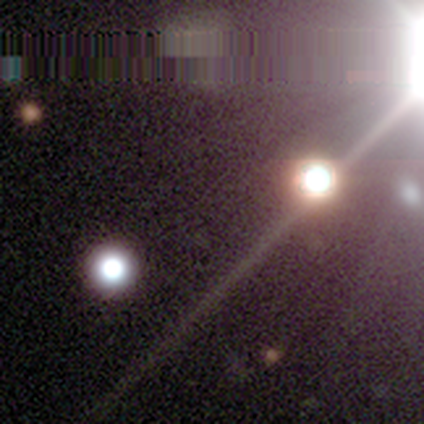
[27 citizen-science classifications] This appears to be a star or artifact, not a galaxy (81%).